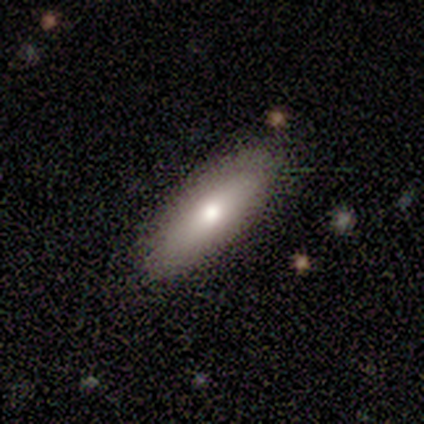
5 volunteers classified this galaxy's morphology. A smooth galaxy with no disk features (100%) that is in between round and cigar-shaped (80%).

Vote fractions:
- Smooth or featured? smooth: 100% / featured or disk: 0% / star or artifact: 0%
- How rounded? in between: 80% / cigar-shaped: 20% / round: 0%
- Merging? none: 80% / minor disturbance: 20% / major disturbance: 0% / merger: 0%